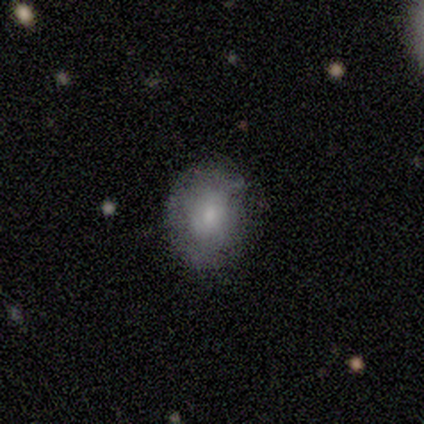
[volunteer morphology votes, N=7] A smooth galaxy with no disk features (100%) that is round (57%). Merging: none (86%).